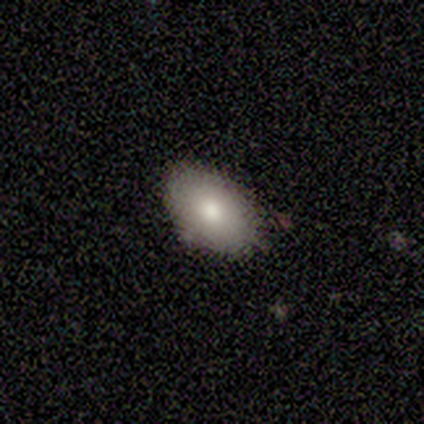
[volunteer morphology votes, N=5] smooth_or_featured: smooth (p=0.80) [alt: featured or disk p=0.20]
how_rounded: in between (p=1.00)
merging: none (p=1.00)